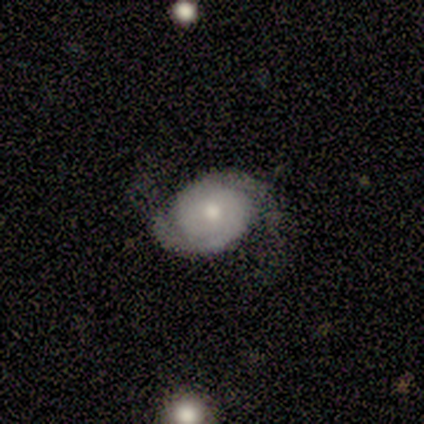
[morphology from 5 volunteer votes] Smooth or featured? featured or disk (80%)
Edge-on disk? no (100%)
Bar? no (75%)
Spiral arms? yes (100%)
Spiral winding? tight (50%, tied with medium)
Spiral arm count? 2 (100%)
Bulge size? moderate (75%)
Merging? none (75%)